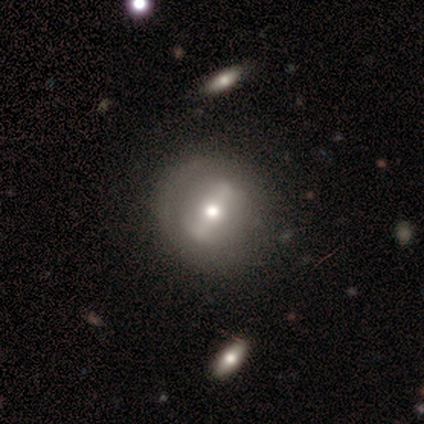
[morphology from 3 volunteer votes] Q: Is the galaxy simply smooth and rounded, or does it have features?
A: featured or disk — 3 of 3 (100%).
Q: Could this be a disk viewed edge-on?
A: no — 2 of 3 (67%).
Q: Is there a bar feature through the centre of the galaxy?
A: strong — 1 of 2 (50%, tied with no).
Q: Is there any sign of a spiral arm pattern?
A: no — 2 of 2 (100%).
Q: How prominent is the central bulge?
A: moderate — 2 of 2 (100%).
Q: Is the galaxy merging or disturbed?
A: none — 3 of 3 (100%).